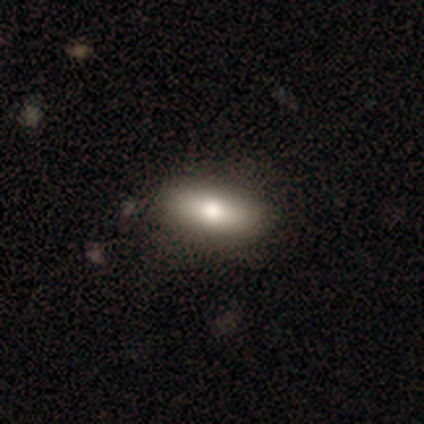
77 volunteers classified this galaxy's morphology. A smooth galaxy with no disk features (79%) that is in between round and cigar-shaped (74%). Merging: none (51%).